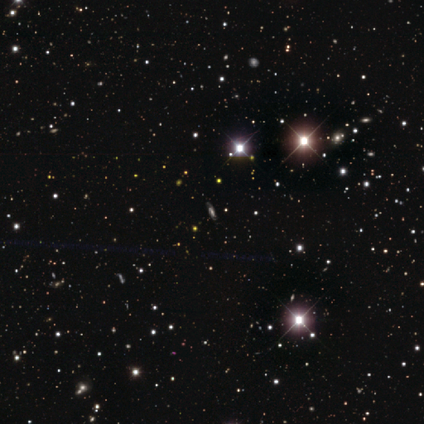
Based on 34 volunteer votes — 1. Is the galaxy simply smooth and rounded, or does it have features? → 59% star or artifact, 38% featured or disk, 3% smooth.